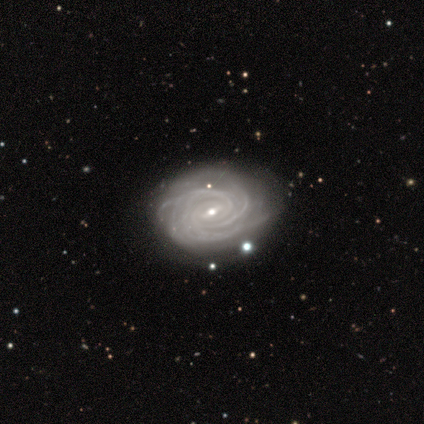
A featured or disk galaxy (100%) with a weak bar (100%), tight (75%) spiral arms (100%) and a moderate central bulge (75%). Merging: none (50%, tied with minor disturbance).